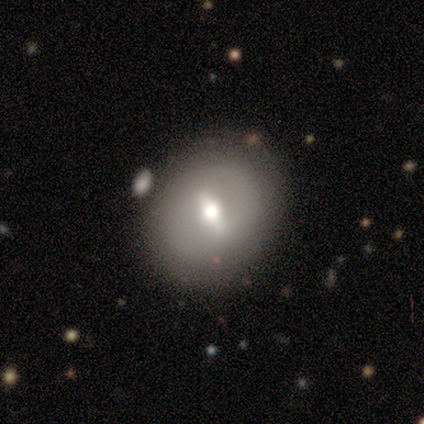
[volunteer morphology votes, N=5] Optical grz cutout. It shows a featured or disk galaxy (60%) with a strong bar (50%, tied with no), no spiral arms (100%) and a moderate central bulge (50%, tied with small). Merging: none (80%).